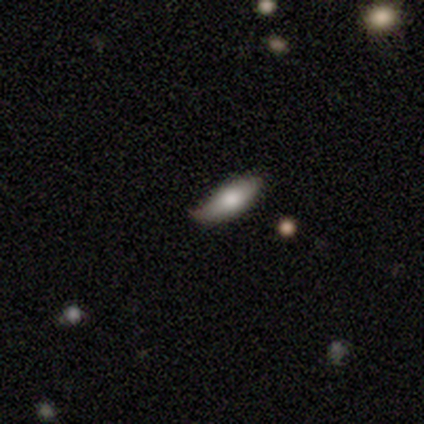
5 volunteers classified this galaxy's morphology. A smooth galaxy with no disk features (60%) that is in between round and cigar-shaped (100%).

Vote fractions:
- Smooth or featured? smooth: 60% / featured or disk: 20% / star or artifact: 20%
- How rounded? in between: 100% / round: 0% / cigar-shaped: 0%
- Merging? none: 50% (tied) / minor disturbance: 50% (tied) / major disturbance: 0% / merger: 0%